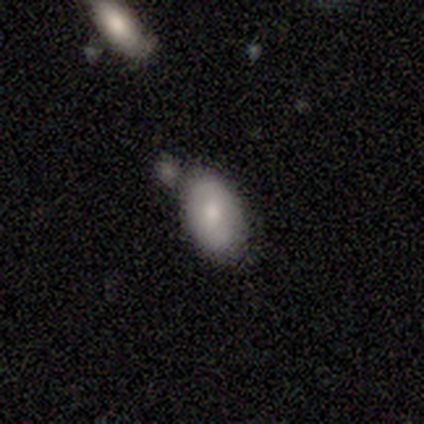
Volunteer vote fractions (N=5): Volunteers were most divided on "merging" (2-way tie): none: 40%, merger: 40%, minor disturbance: 20%, major disturbance: 0%. More confident: smooth or featured — smooth (100%); how rounded — in between (100%).